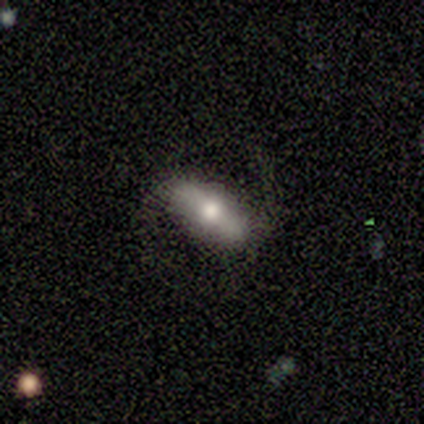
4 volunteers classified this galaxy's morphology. type=smooth (75%); roundness=in between (67%); merging=none (75%).